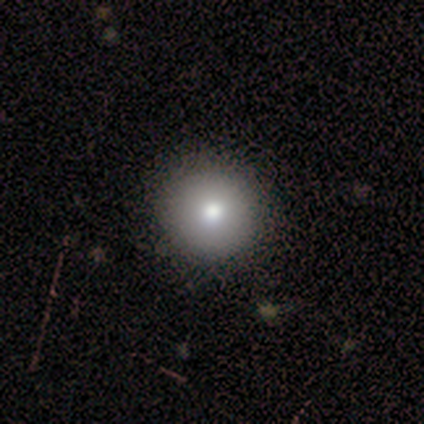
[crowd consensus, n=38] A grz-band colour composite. It shows a smooth galaxy with no disk features (76%) that is round (100%). Merging: none (97%).